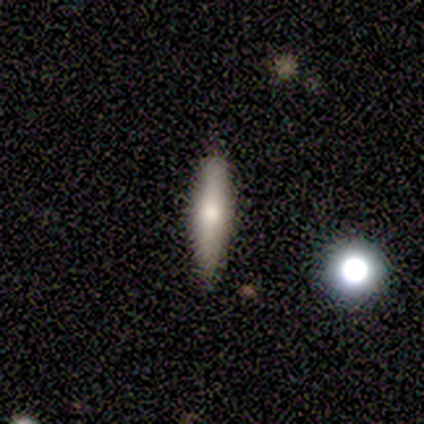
Smooth or featured? 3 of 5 (60%) said smooth. How rounded? 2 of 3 (67%) said cigar-shaped. Merging? 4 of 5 (80%) said none.